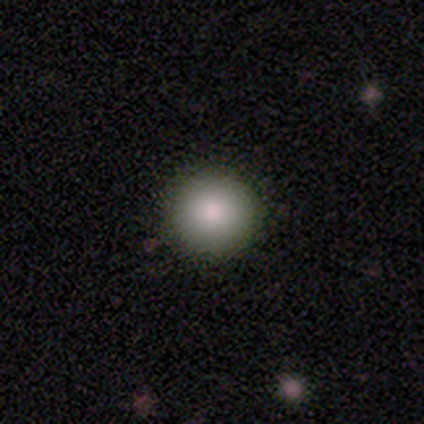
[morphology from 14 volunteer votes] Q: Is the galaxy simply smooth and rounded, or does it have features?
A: smooth — 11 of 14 (79%).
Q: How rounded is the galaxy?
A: round — 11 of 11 (100%).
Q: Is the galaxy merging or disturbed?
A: none — 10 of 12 (83%).